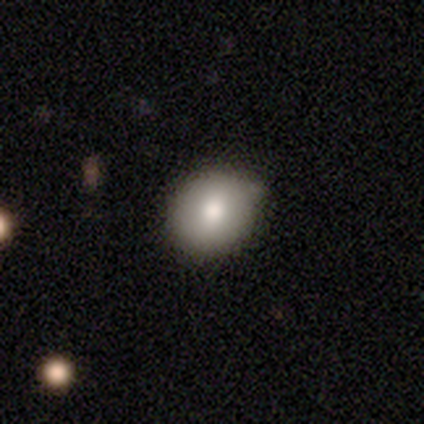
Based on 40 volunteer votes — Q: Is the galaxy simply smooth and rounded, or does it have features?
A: smooth — 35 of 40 (88%).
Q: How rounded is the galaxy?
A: round — 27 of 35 (77%).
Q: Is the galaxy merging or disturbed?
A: none — 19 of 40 (48%).